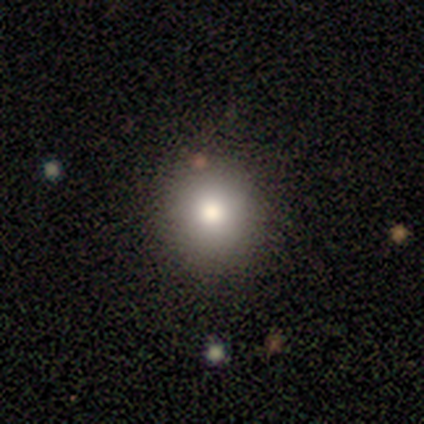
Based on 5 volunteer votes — Volunteers were most divided on "how rounded": round: 75%, in between: 25%, cigar-shaped: 0%. More confident: smooth or featured — smooth (80%); merging — none (75%).